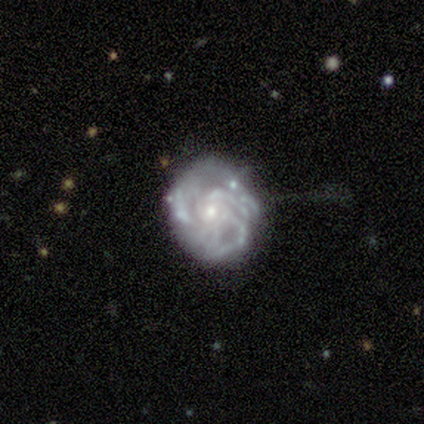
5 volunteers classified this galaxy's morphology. Smooth or featured? 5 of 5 (100%) said featured or disk. Edge-on disk? 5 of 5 (100%) said no. Bar? 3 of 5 (60%) said no. Spiral arms? 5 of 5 (100%) said yes. Spiral winding? 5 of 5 (100%) said tight. Spiral arm count? 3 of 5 (60%) said can't tell. Bulge size? 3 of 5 (60%) said small. Merging? 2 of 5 (40%, tied with major disturbance) said none.